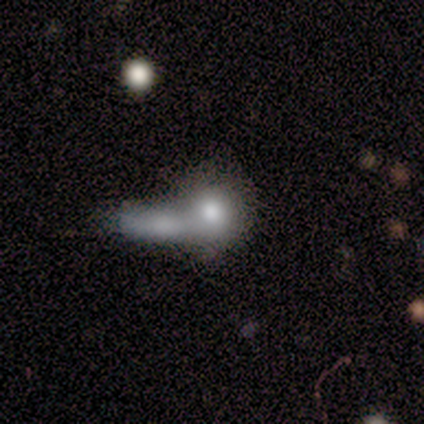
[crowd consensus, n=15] This appears to be a smooth galaxy with no disk features (60%) that is round (56%). Merging: merger (69%).